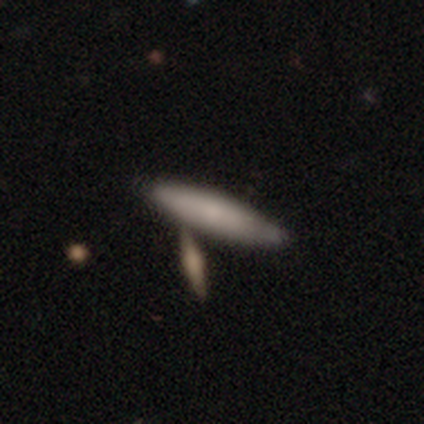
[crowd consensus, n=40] A smooth galaxy with no disk features (72%) that is cigar-shaped (76%).

Vote fractions:
- Smooth or featured? smooth: 72% / featured or disk: 28% / star or artifact: 0%
- How rounded? cigar-shaped: 76% / in between: 21% / round: 3%
- Merging? none: 57% / minor disturbance: 18% / merger: 15% / major disturbance: 10%